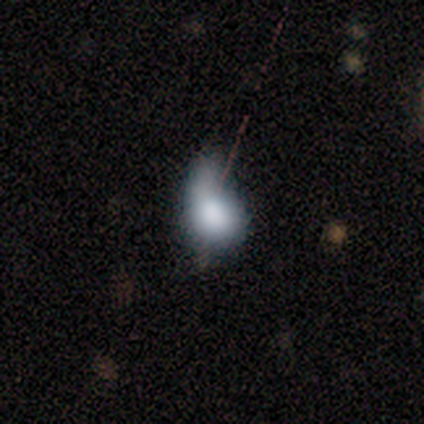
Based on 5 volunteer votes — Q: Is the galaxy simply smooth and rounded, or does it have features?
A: smooth — 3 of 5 (60%).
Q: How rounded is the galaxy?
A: in between — 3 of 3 (100%).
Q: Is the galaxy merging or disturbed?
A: minor disturbance — 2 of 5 (40%, tied with merger).